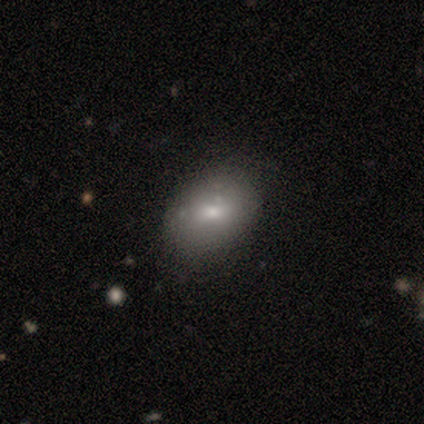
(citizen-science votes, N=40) smooth 82%, featured or disk 15%, star or artifact 2%. Down the decision tree: how rounded — in between (76%); merging — none (62%).